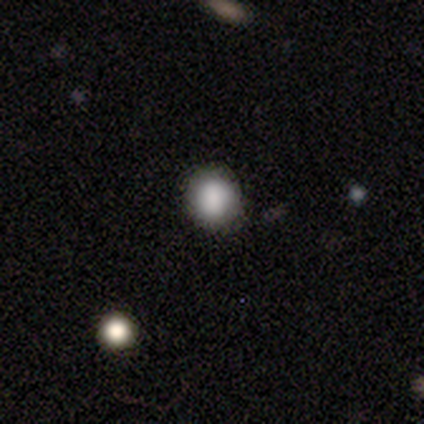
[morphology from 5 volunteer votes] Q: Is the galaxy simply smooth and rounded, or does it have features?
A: smooth — 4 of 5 (80%).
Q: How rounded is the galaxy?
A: round — 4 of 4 (100%).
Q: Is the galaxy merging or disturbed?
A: none — 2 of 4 (50%, tied with minor disturbance).